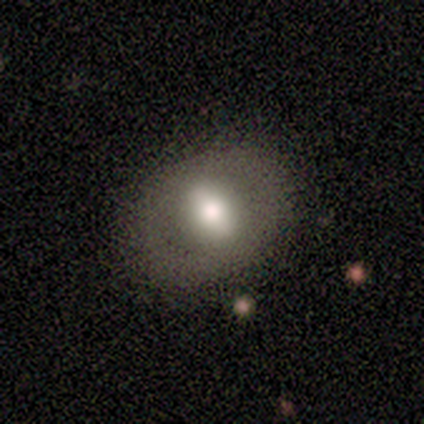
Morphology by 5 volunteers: This appears to be a smooth galaxy with no disk features (80%) that is in between round and cigar-shaped (75%). Merging: none (100%).